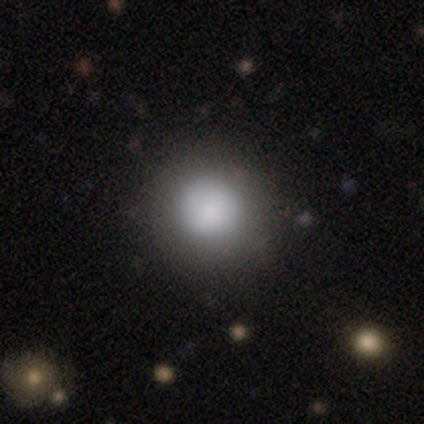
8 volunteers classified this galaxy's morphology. Q: Smooth or featured?
A: smooth (88%); runner-up: star or artifact (12%)
Q: How rounded?
A: round (100%)
Q: Merging?
A: none (100%)